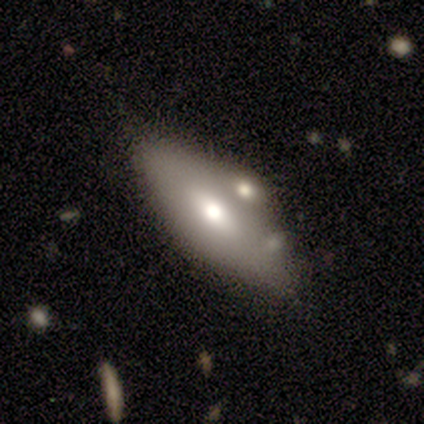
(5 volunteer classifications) Morphology: type=featured or disk (60%); edge-on=yes (67%); edge-on bulge=boxy (50%, tied with rounded); merging=merger (60%).